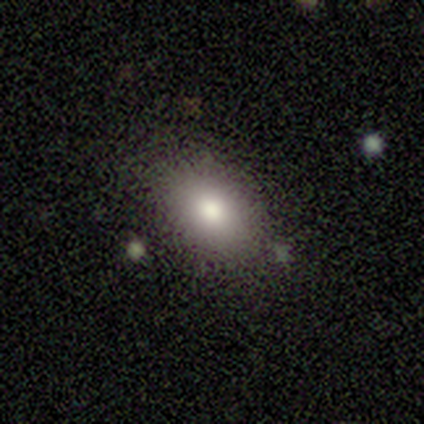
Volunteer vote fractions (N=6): smooth_or_featured: smooth (p=0.83) [alt: featured or disk p=0.17]
how_rounded: in between (p=0.80) [alt: round p=0.20]
merging: none (p=1.00)